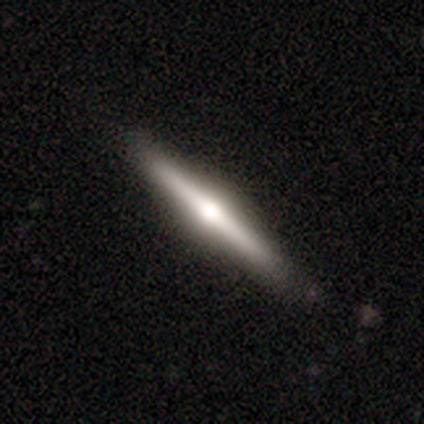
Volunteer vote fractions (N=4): Q: Smooth or featured?
A: featured or disk (75%); runner-up: smooth (25%)
Q: Edge-on disk?
A: yes (100%)
Q: Edge-on bulge?
A: rounded (100%)
Q: Merging?
A: none (100%)